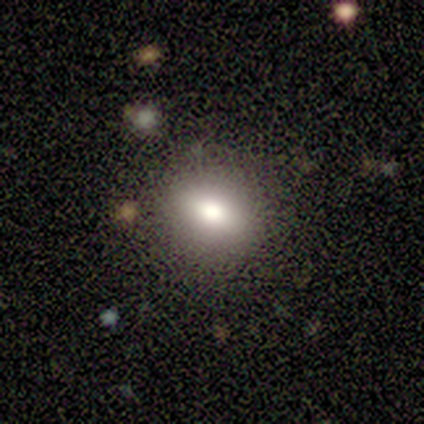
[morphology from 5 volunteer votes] Volunteers were most divided on "smooth or featured": smooth: 60%, featured or disk: 40%, star or artifact: 0%. More confident: how rounded — round (100%); merging — none (80%).